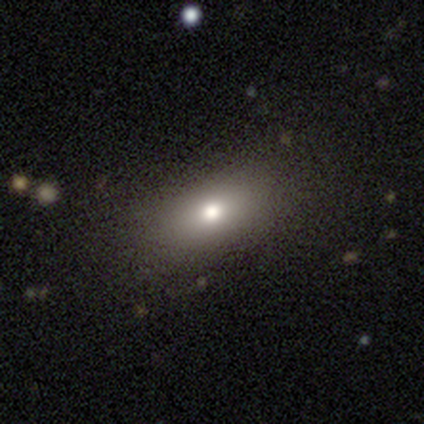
Smooth or featured? 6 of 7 (86%) said smooth. How rounded? 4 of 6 (67%) said in between. Merging? 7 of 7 (100%) said none.